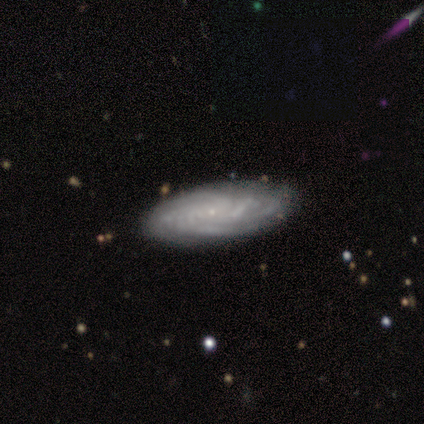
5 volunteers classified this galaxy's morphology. Volunteers were most divided on "bar": no: 67%, weak: 33%, strong: 0%. More confident: spiral arms — yes (100%); spiral winding — tight (100%); spiral arm count — can't tell (100%); merging — none (100%); smooth or featured — featured or disk (80%); edge-on disk — no (75%); bulge size — small (67%).